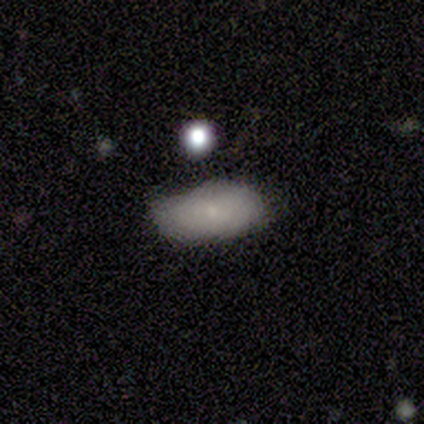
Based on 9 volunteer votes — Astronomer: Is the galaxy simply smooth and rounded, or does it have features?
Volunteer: smooth — 67%.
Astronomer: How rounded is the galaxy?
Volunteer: in between — 100%.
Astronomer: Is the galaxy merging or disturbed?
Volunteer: none — 78%.